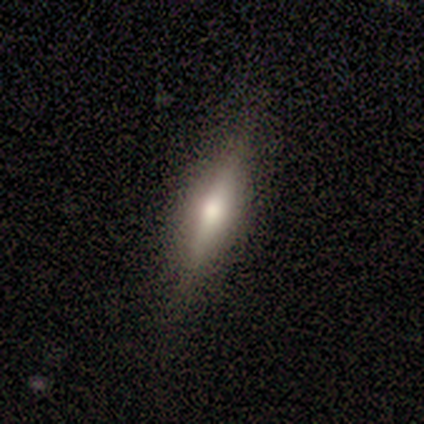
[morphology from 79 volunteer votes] A featured or disk galaxy (57%) viewed edge-on (98%) with a rounded central bulge (93%). Merging: none (58%).